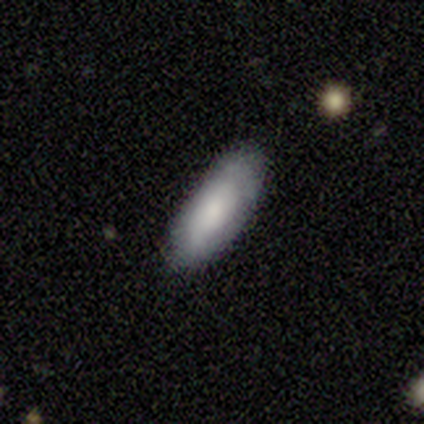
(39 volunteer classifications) Smooth or featured: smooth — 74% (featured or disk — 23%)
How rounded: in between — 83% (cigar-shaped — 17%)
Merging: none — 68% (minor disturbance — 26%)